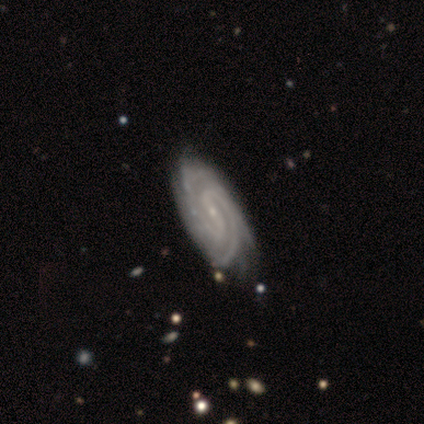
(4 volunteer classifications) Overall: featured or disk (75%). Edge-on disk: no (100%). Bar: strong (100%). Spiral arms: yes (100%). Spiral arm count: 2 (100%). Spiral winding: tight (67%; medium 33%). Bulge size: small (100%). Merging: none (67%; minor disturbance 33%).